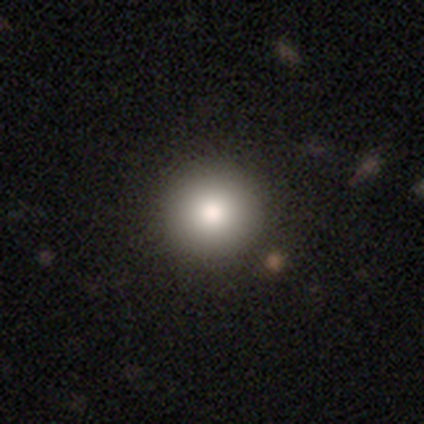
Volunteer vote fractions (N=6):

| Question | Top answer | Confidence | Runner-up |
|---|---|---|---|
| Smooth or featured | smooth | 67% | featured or disk (17%) |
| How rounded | round | 75% | in between (25%) |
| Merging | none | 80% | major disturbance (20%) |